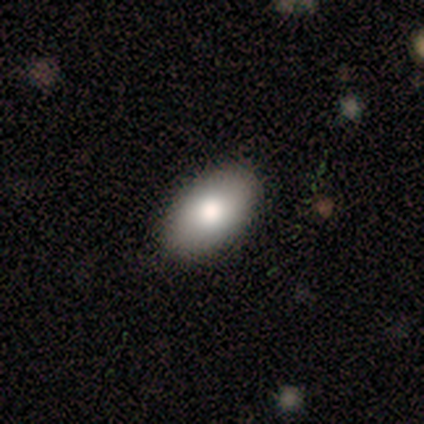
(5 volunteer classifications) A smooth galaxy with no disk features (80%) that is in between round and cigar-shaped (100%). Merging: none (80%).